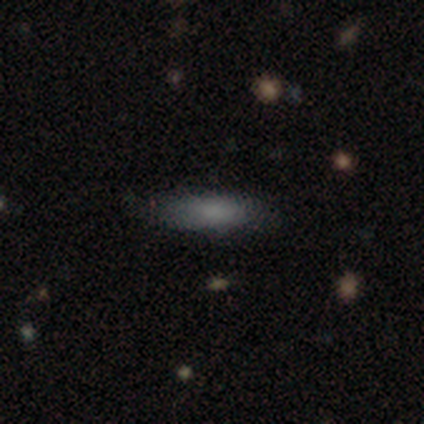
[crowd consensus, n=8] A smooth galaxy with no disk features (88%) that is cigar-shaped (86%).

Vote fractions:
- Smooth or featured? smooth: 88% / star or artifact: 12% / featured or disk: 0%
- How rounded? cigar-shaped: 86% / in between: 14% / round: 0%
- Merging? none: 71% / minor disturbance: 29% / major disturbance: 0% / merger: 0%